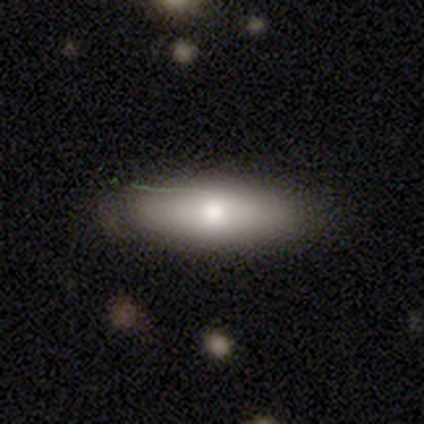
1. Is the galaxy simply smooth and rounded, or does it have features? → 75% smooth, 25% featured or disk, 0% star or artifact.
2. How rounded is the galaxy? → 83% in between, 17% cigar-shaped, 0% round.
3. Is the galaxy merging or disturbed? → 62% none, 25% minor disturbance, 12% major disturbance, 0% merger.